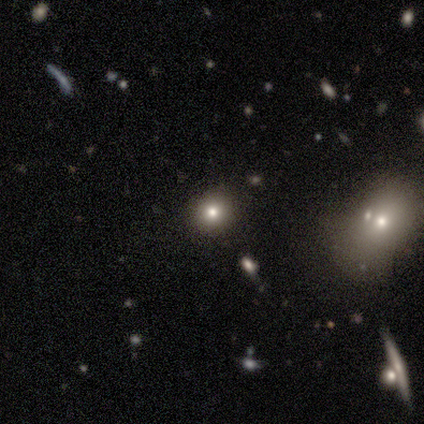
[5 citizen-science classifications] smooth 80%, star or artifact 20%, featured or disk 0%. Down the decision tree: how rounded — round (100%); merging — none (75%).